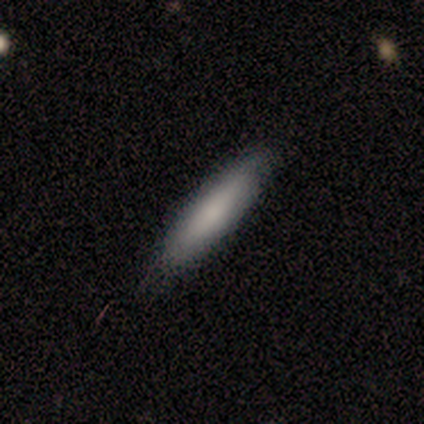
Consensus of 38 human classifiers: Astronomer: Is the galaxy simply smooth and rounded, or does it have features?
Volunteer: smooth — 76%.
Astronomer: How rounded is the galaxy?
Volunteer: cigar-shaped — 93%.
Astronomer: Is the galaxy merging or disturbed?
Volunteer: none — 83%.